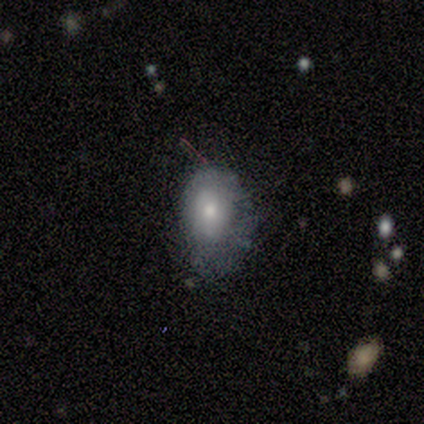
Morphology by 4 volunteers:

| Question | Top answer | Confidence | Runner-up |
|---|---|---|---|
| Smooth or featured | smooth | 75% | featured or disk (25%) |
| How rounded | in between | 67% | round (33%) |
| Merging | none | 50% | minor disturbance (25%) |